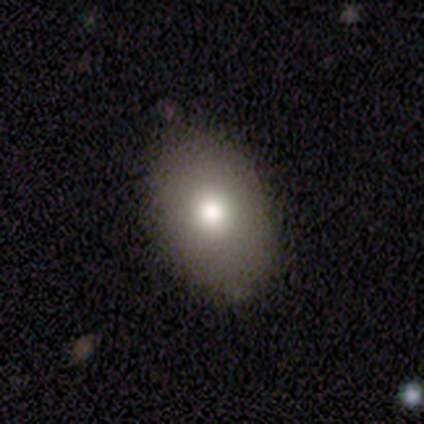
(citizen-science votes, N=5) This is clearly a smooth galaxy (80%). How rounded: clearly in between (100%). Merging: possibly none (50%, tied with minor disturbance).